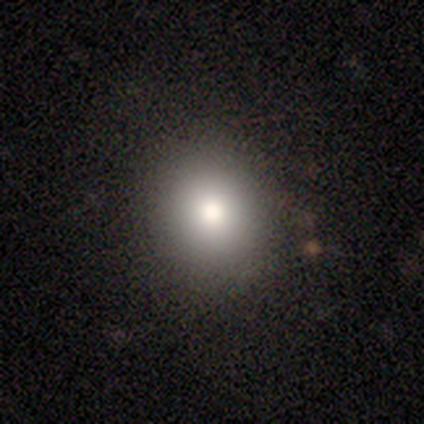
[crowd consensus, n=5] A smooth galaxy with no disk features (80%) that is round (75%).

Vote fractions:
- Smooth or featured? smooth: 80% / featured or disk: 20% / star or artifact: 0%
- How rounded? round: 75% / in between: 25% / cigar-shaped: 0%
- Merging? none: 100% / minor disturbance: 0% / major disturbance: 0% / merger: 0%